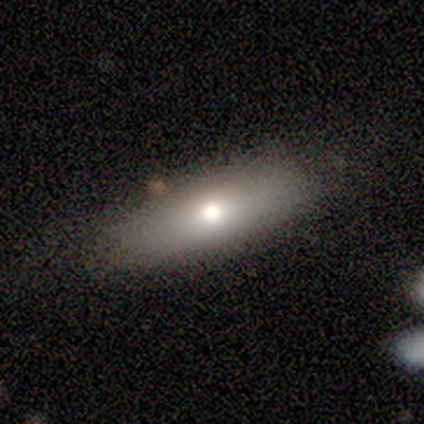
A smooth galaxy with no disk features (80%) that is in between round and cigar-shaped (100%). Merging: none (60%).